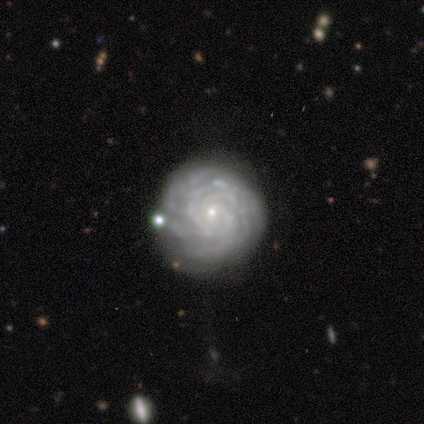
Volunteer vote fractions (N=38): Overall: featured or disk (87%). Edge-on disk: no (100%). Bar: no (76%). Spiral arms: yes (91%). Spiral arm count: can't tell (50%; more than 4 30%). Spiral winding: tight (87%). Bulge size: small (79%). Merging: none (67%).